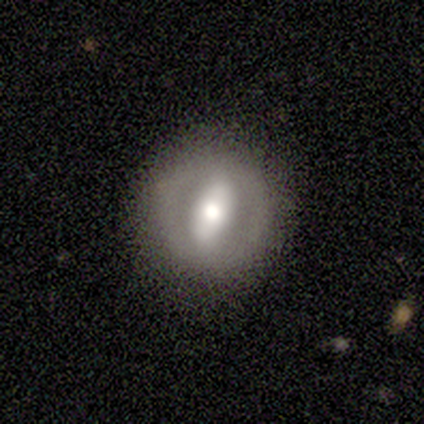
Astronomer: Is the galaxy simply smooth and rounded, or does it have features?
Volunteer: featured or disk — 100%.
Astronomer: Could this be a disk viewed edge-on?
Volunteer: no — 100%.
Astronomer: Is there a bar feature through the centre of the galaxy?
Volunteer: strong — 75%.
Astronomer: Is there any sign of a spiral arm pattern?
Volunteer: no — 100%.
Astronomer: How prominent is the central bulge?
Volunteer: moderate — 75%.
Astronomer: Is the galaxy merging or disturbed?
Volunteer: none — 100%.